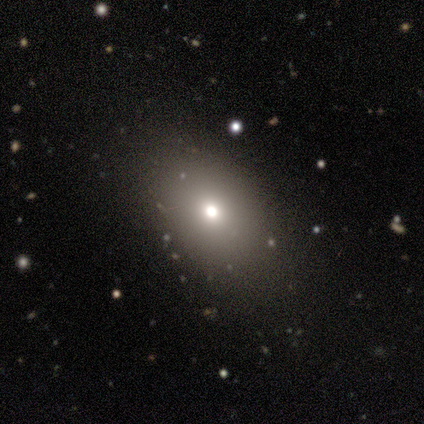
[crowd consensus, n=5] Q: Smooth or featured?
A: smooth (80%); runner-up: featured or disk (20%)
Q: How rounded?
A: in between (100%)
Q: Merging?
A: none (40%); runner-up: minor disturbance (20%)